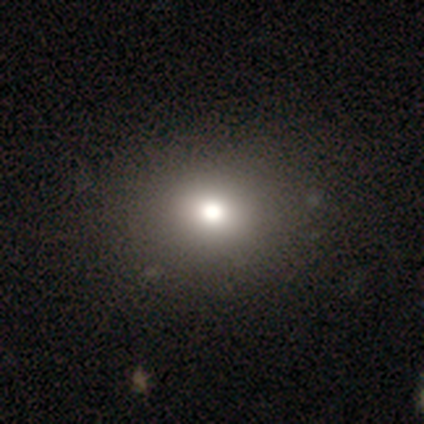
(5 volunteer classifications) Volunteers were most divided on "how rounded": in between: 60%, round: 40%, cigar-shaped: 0%. More confident: smooth or featured — smooth (100%); merging — none (100%).